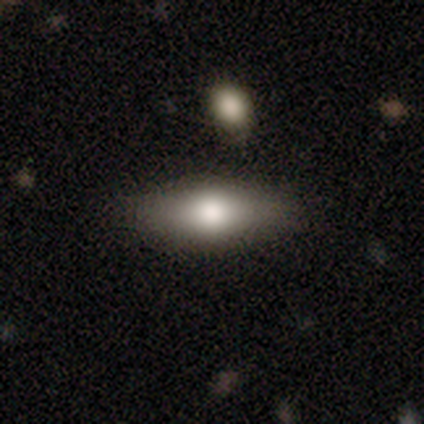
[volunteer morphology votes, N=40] A smooth galaxy with no disk features (68%) that is in between round and cigar-shaped (70%).

Vote fractions:
- Smooth or featured? smooth: 68% / featured or disk: 25% / star or artifact: 8%
- How rounded? in between: 70% / cigar-shaped: 30% / round: 0%
- Merging? none: 59% / minor disturbance: 5% / major disturbance: 0% / merger: 0%